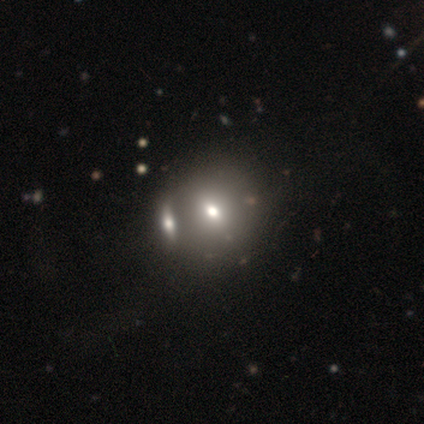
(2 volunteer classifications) This is possibly a smooth galaxy (50%, tied with featured or disk). How rounded: clearly round (100%). Merging: possibly none (50%, tied with merger).